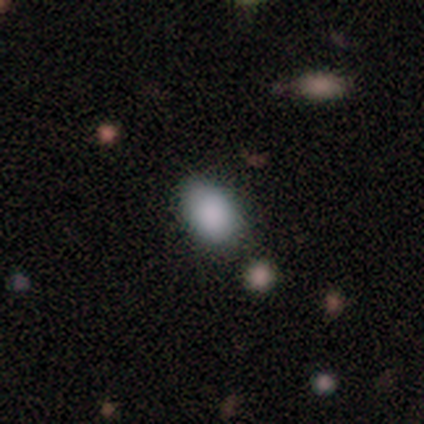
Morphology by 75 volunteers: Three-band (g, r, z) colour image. It shows a smooth galaxy with no disk features (87%) that is in between round and cigar-shaped (85%). Merging: none (49%).